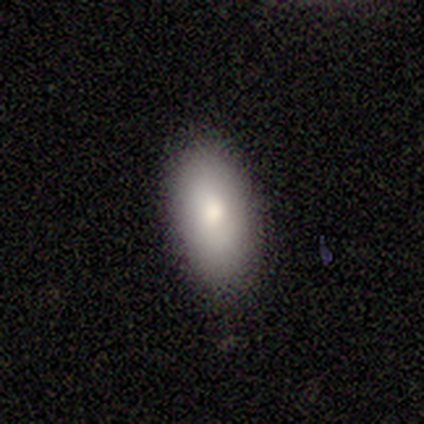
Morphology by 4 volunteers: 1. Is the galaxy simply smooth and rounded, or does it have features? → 50% smooth (tied), 50% featured or disk (tied), 0% star or artifact.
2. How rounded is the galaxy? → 100% in between, 0% round, 0% cigar-shaped.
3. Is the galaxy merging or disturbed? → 100% none, 0% minor disturbance, 0% major disturbance, 0% merger.